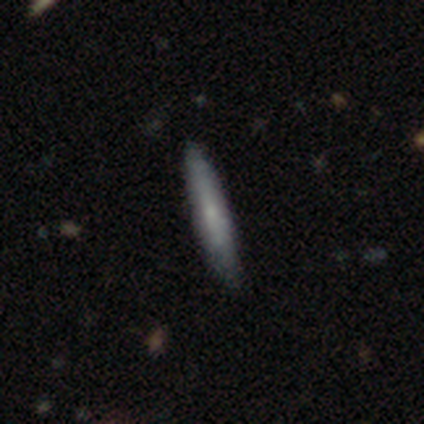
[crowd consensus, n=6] Q: Smooth or featured?
A: smooth (83%); runner-up: featured or disk (17%)
Q: How rounded?
A: cigar-shaped (100%)
Q: Merging?
A: none (50%); tied with: minor disturbance (50%)